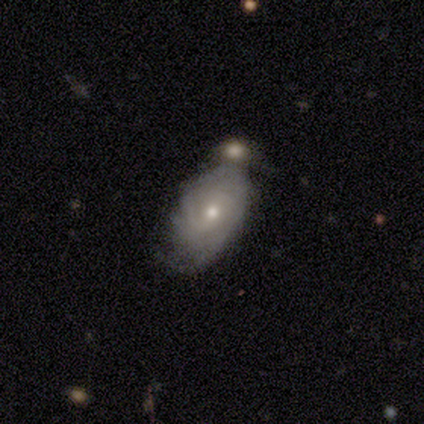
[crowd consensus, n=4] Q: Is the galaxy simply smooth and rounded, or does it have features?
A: featured or disk — 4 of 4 (100%).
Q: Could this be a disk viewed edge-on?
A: no — 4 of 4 (100%).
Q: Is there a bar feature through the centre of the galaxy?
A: no — 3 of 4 (75%).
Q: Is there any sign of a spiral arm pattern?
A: yes — 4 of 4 (100%).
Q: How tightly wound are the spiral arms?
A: tight — 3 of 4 (75%).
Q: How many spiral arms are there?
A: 2 — 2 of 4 (50%, tied with can't tell).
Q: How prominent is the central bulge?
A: moderate — 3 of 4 (75%).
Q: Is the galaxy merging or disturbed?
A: minor disturbance — 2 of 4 (50%).